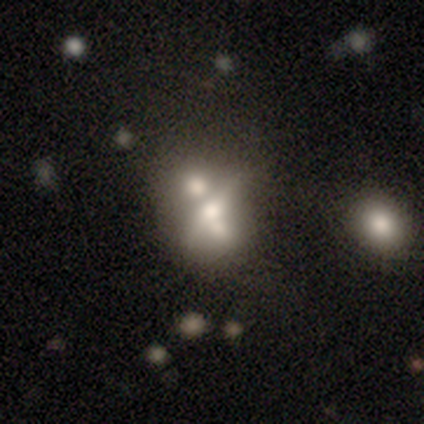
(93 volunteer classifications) Smooth or featured?
  - featured or disk: 51% *
  - smooth: 39%
  - star or artifact: 11%
Edge-on disk?
  - no: 55% *
  - yes: 45%
Bar?
  - no: 65% *
  - weak: 23%
  - strong: 12%
Spiral arms?
  - no: 96% *
  - yes: 4%
Bulge size?
  - moderate: 54% *
  - large: 23%
  - small: 15%
  - none: 8%
  - dominant: 0%
Merging?
  - merger: 51% *
  - none: 25%
  - major disturbance: 14%
  - minor disturbance: 10%